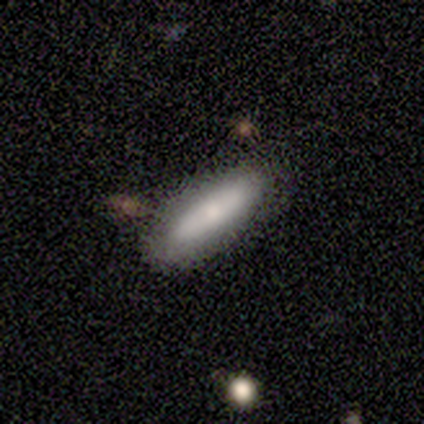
This appears to be a smooth galaxy with no disk features (100%) that is cigar-shaped (75%). Merging: none (100%).